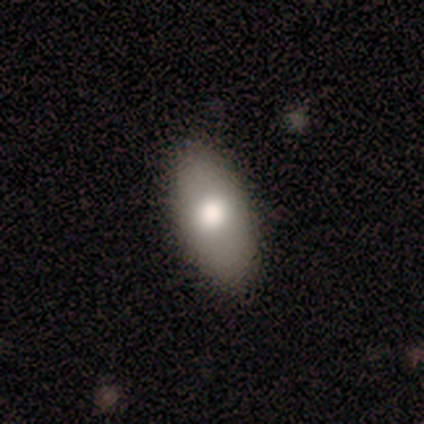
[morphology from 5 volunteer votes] Smooth or featured: smooth — 60% (featured or disk — 40%)
How rounded: in between — 100%
Merging: none — 100%